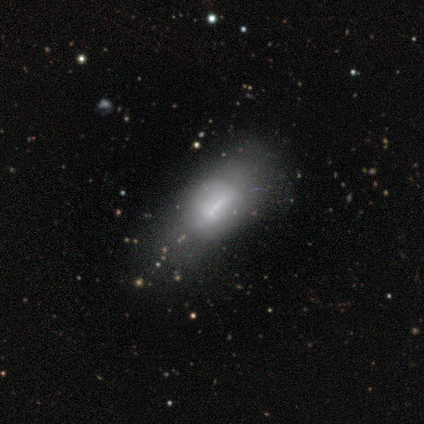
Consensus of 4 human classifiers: Smooth or featured?
  - smooth: 50% *
  - featured or disk: 25%
  - star or artifact: 25%
How rounded?
  - in between: 100% *
  - round: 0%
  - cigar-shaped: 0%
Merging?
  - none: 67% *
  - minor disturbance: 33%
  - major disturbance: 0%
  - merger: 0%